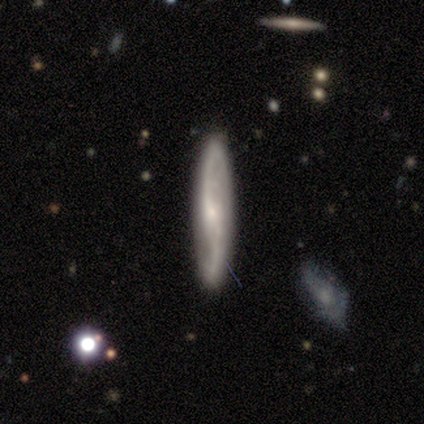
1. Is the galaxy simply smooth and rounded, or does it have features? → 60% featured or disk, 40% smooth, 0% star or artifact.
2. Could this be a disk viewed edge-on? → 67% no, 33% yes.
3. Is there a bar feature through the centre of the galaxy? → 100% no, 0% strong, 0% weak.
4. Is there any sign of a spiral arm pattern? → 100% yes, 0% no.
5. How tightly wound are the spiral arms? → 50% medium (tied), 50% loose (tied), 0% tight.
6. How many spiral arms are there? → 100% 2, 0% 1, 0% 3, 0% 4, 0% more than 4, 0% can't tell.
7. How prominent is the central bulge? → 50% small (tied), 50% none (tied), 0% dominant, 0% large, 0% moderate.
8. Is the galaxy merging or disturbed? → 100% none, 0% minor disturbance, 0% major disturbance, 0% merger.